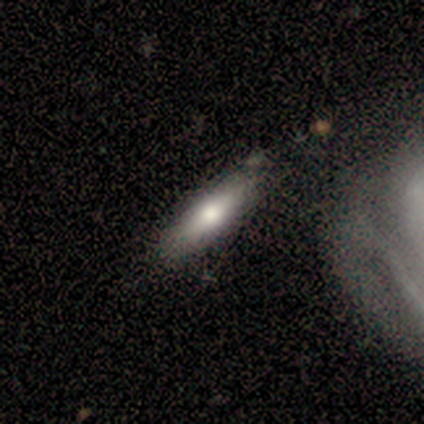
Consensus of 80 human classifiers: Smooth or featured?
  - smooth: 66% *
  - featured or disk: 28%
  - star or artifact: 6%
How rounded?
  - cigar-shaped: 60% *
  - in between: 40%
  - round: 0%
Merging?
  - none: 37% *
  - merger: 13%
  - minor disturbance: 7%
  - major disturbance: 1%